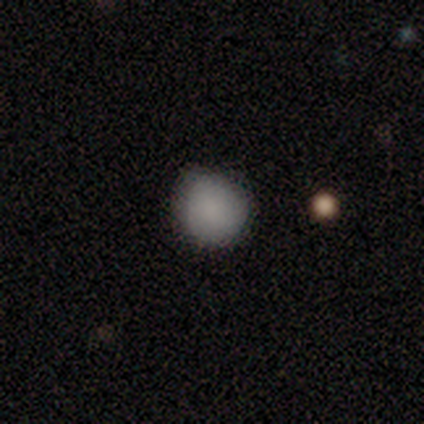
A smooth galaxy with no disk features (67%) that is round (100%). Merging: none (100%).